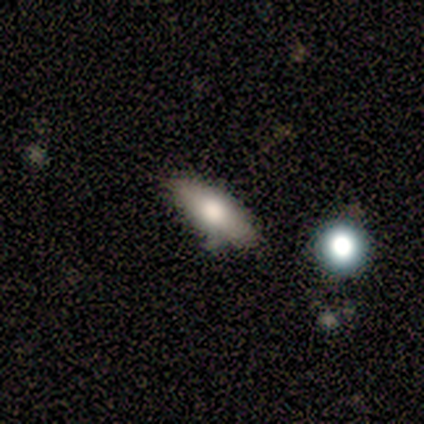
Q: Smooth or featured?
A: smooth (100%)
Q: How rounded?
A: in between (60%); runner-up: cigar-shaped (40%)
Q: Merging?
A: none (80%); runner-up: minor disturbance (20%)